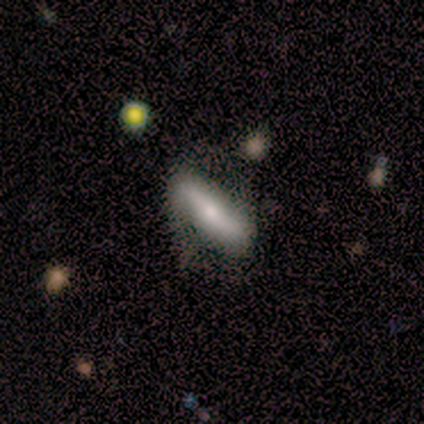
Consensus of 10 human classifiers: Morphology: type=featured or disk (60%); edge-on=no (67%); bar=strong (100%); spiral arms=yes (75%); winding=tight (33%, tied with medium and loose); arm count=2 (100%); bulge=moderate (50%); merging=none (60%).